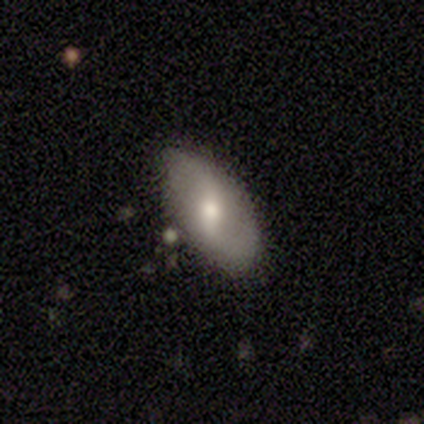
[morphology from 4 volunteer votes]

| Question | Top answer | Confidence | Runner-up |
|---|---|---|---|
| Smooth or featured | featured or disk | 75% | smooth (25%) |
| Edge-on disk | no | 100% | — |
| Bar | strong | 33% | tied: weak (33%), no (33%) |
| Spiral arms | yes | 67% | no (33%) |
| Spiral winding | loose | 100% | — |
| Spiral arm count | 2 | 100% | — |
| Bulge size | moderate | 100% | — |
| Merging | none | 50% | tied: minor disturbance (50%) |